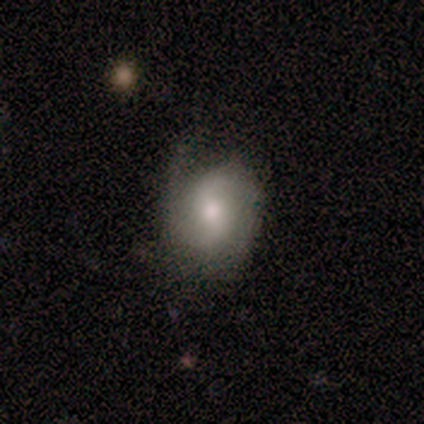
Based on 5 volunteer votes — Smooth or featured? featured or disk (80%)
Edge-on disk? no (100%)
Bar? weak (75%)
Spiral arms? yes (100%)
Spiral winding? loose (50%)
Spiral arm count? 2 (75%)
Bulge size? moderate (50%, tied with small)
Merging? minor disturbance (80%)